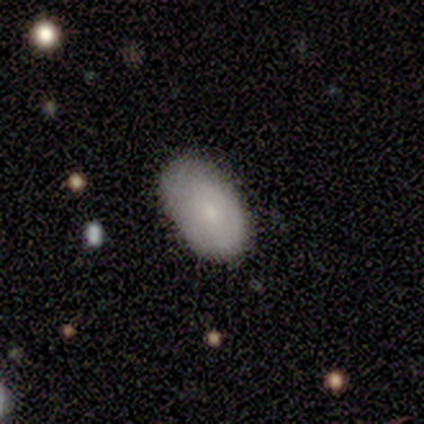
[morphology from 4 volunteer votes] Smooth or featured? 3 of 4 (75%) said smooth. How rounded? 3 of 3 (100%) said in between. Merging? 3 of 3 (100%) said none.